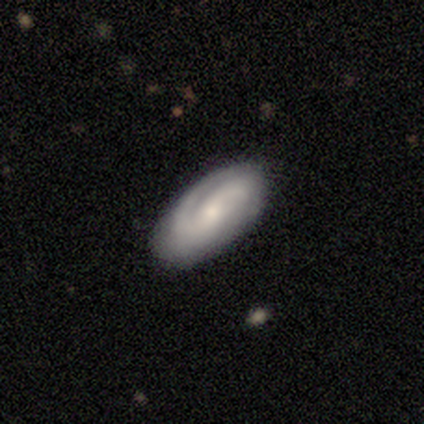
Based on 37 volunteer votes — Volunteers were most divided on "spiral winding" (2-way tie): tight: 48%, medium: 48%, loose: 4%. Remaining: edge-on disk — no (100%); spiral arms — yes (96%); merging — none (89%); smooth or featured — featured or disk (76%); spiral arm count — 2 (56%); bulge size — small (54%); bar — no (43%).